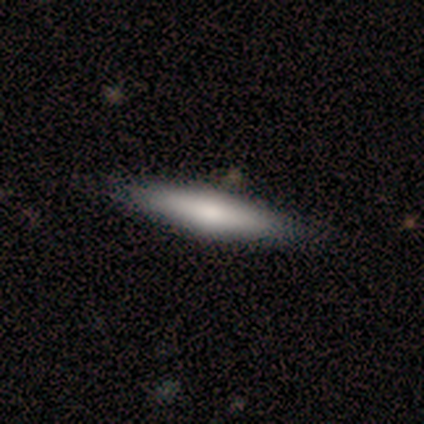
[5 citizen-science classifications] A smooth galaxy with no disk features (60%) that is cigar-shaped (67%).

Vote fractions:
- Smooth or featured? smooth: 60% / featured or disk: 20% / star or artifact: 20%
- How rounded? cigar-shaped: 67% / in between: 33% / round: 0%
- Merging? none: 75% / minor disturbance: 25% / major disturbance: 0% / merger: 0%